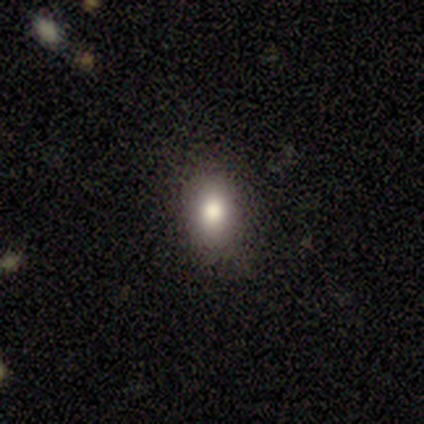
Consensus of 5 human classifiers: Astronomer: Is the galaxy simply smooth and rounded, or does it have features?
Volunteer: smooth — 60% (runner-up: featured or disk, 40%).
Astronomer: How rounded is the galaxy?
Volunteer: in between — 100%.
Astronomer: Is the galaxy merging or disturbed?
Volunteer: none — 100%.